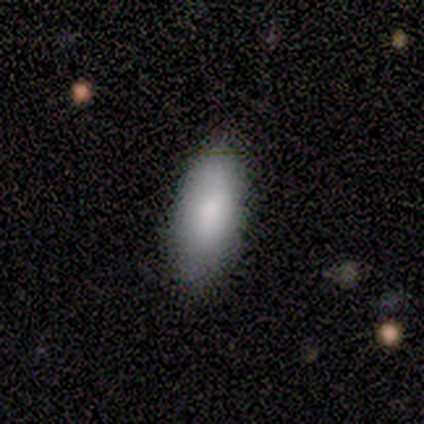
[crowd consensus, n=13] Smooth or featured?
  - smooth: 85% *
  - star or artifact: 15%
  - featured or disk: 0%
How rounded?
  - in between: 100% *
  - round: 0%
  - cigar-shaped: 0%
Merging?
  - none: 82% *
  - minor disturbance: 18%
  - major disturbance: 0%
  - merger: 0%